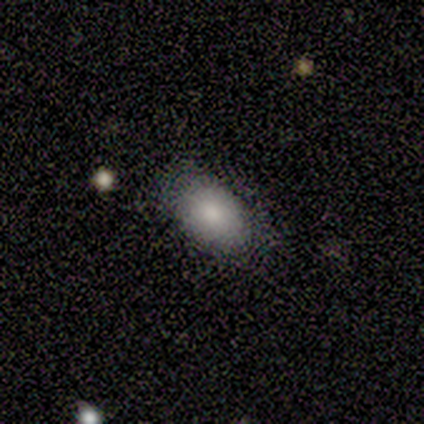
Smooth or featured? smooth (60%)
How rounded? round (67%)
Merging? minor disturbance (75%)